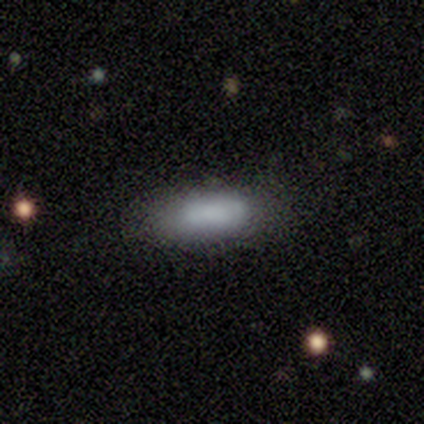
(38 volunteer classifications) Morphology: type=smooth (74%); roundness=in between (68%); merging=none (74%).